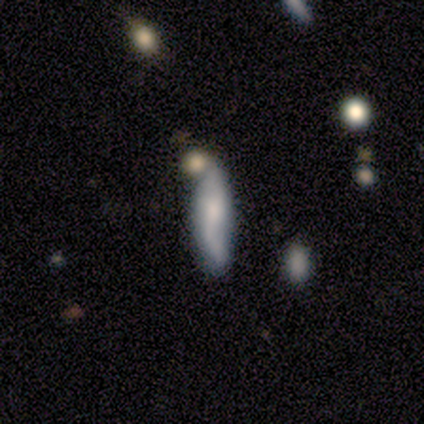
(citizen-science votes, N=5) A smooth galaxy with no disk features (80%) that is cigar-shaped (100%).

Vote fractions:
- Smooth or featured? smooth: 80% / featured or disk: 20% / star or artifact: 0%
- How rounded? cigar-shaped: 100% / round: 0% / in between: 0%
- Merging? none: 40% (tied) / merger: 40% (tied) / minor disturbance: 20% / major disturbance: 0%